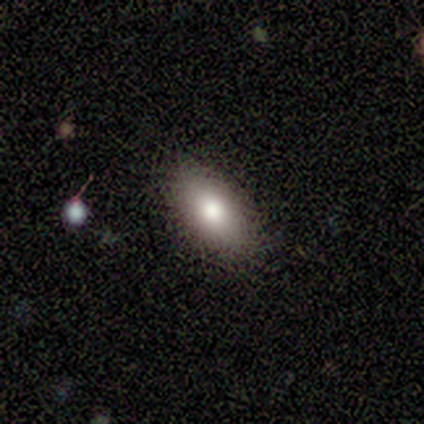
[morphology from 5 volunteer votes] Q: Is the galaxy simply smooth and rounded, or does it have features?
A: smooth — 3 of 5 (60%).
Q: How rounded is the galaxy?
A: in between — 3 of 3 (100%).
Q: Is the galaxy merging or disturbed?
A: none — 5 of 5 (100%).